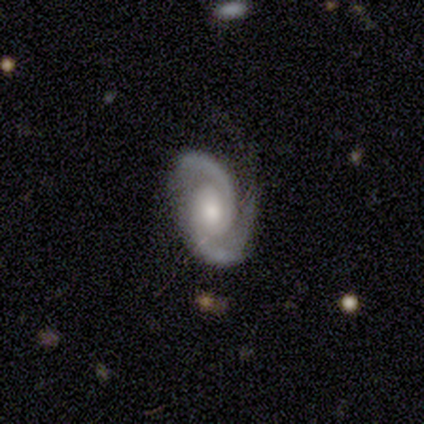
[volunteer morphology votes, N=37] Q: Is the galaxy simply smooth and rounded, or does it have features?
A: featured or disk — 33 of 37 (89%).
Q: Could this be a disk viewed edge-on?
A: no — 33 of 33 (100%).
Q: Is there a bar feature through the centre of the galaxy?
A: no — 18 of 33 (55%).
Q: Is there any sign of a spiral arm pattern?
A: yes — 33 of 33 (100%).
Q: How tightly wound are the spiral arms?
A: medium — 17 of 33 (52%).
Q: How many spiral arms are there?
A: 2 — 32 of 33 (97%).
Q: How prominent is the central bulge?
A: moderate — 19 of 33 (58%).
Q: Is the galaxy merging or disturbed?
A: none — 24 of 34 (71%).